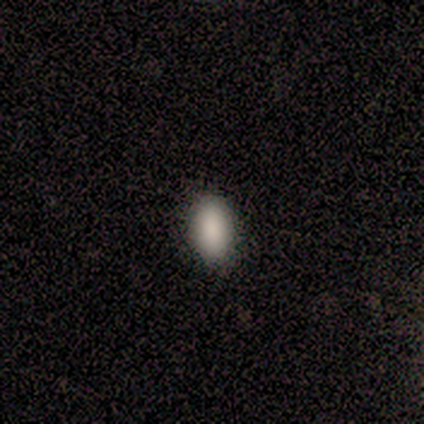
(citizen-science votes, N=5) Volunteers were most divided on "how rounded": in between: 80%, round: 20%, cigar-shaped: 0%. More confident: smooth or featured — smooth (100%); merging — none (100%).